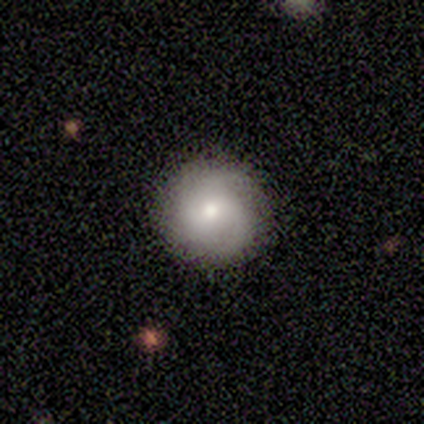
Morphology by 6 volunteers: Smooth or featured? smooth (50%)
How rounded? round (100%)
Merging? none (80%)